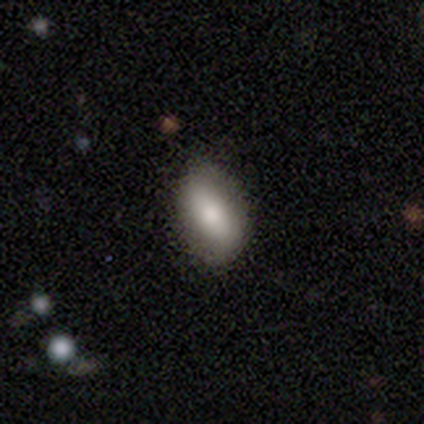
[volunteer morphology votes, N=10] Smooth or featured? smooth (80%)
How rounded? in between (100%)
Merging? none (70%)